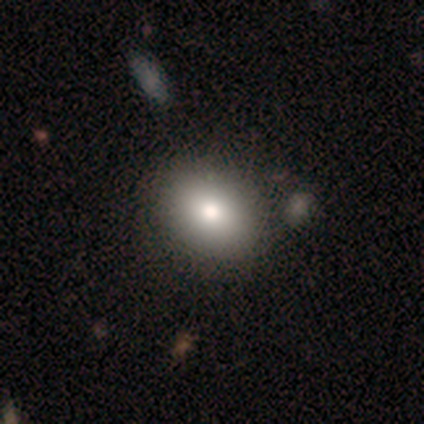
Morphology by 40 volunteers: smooth_or_featured: smooth (p=0.78) [alt: featured or disk p=0.12]
how_rounded: in between (p=0.52) [alt: round p=0.48]
merging: none (p=0.64) [alt: merger p=0.14]